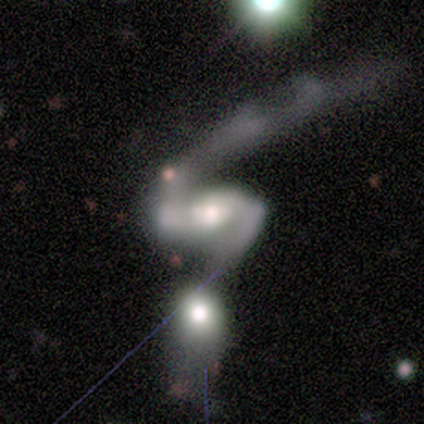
This is likely a featured or disk galaxy (64%). It is clearly not viewed edge-on (100%). Bar: marginally strong (43%, tied with no). Spiral arm pattern: likely yes (71%). Spiral arm count: clearly 2 (100%). Spiral winding: likely loose (60%). Central bulge: likely moderate (71%). Merging: likely merger (70%).